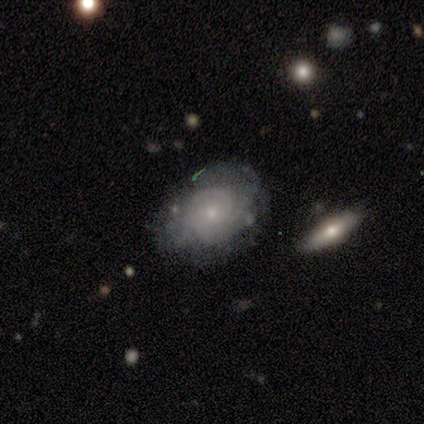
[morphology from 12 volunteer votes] featured or disk 58%, smooth 33%, star or artifact 8%. Down the decision tree: edge-on disk — no (100%); bar — no (100%); spiral arms — yes (86%); spiral arm count — can't tell (50%); spiral winding — tight (67%); bulge size — small (57%); merging — none (82%).